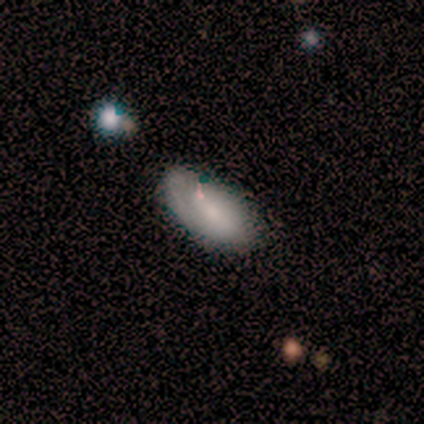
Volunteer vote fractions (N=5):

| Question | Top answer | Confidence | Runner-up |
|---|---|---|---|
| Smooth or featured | smooth | 100% | — |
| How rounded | in between | 80% | round (20%) |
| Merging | none | 60% | minor disturbance (40%) |